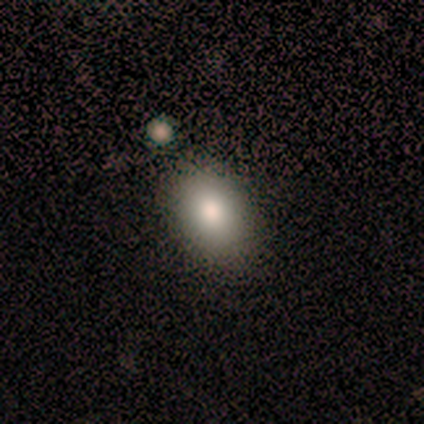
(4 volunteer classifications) smooth-or-featured: smooth: 75% | featured or disk: 25% | star or artifact: 0%
  how-rounded: in between: 100% | round: 0% | cigar-shaped: 0%
  merging: none: 50% | minor disturbance: 25% | merger: 25% | major disturbance: 0%